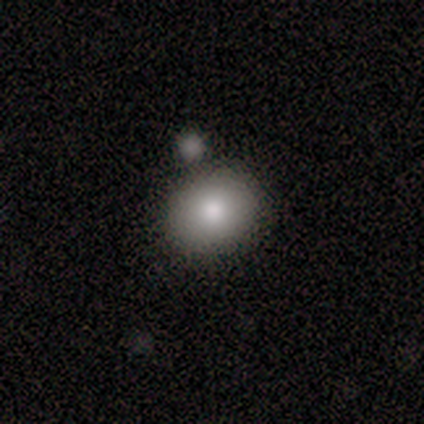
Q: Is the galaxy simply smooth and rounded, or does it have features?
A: smooth — 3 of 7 (43%).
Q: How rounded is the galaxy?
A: in between — 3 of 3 (100%).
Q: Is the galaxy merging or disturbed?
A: none — 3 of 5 (60%).